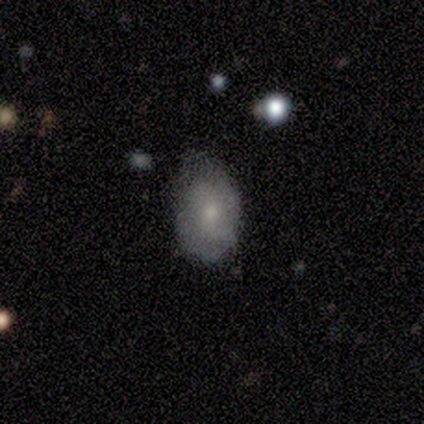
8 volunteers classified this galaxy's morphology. Q: Smooth or featured?
A: smooth (88%); runner-up: featured or disk (12%)
Q: How rounded?
A: in between (71%); runner-up: round (14%)
Q: Merging?
A: minor disturbance (50%); runner-up: none (38%)